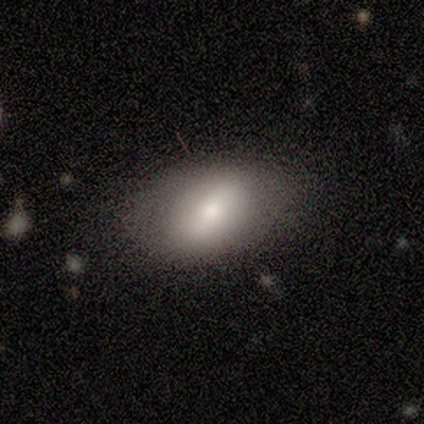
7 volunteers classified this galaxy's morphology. smooth_or_featured: featured or disk (p=0.57) [alt: smooth p=0.43]
disk_edge_on: no (p=0.75) [alt: yes p=0.25]
bar: weak (p=0.67) [alt: strong p=0.33]
has_spiral_arms: no (p=0.67) [alt: yes p=0.33]
bulge_size: moderate (p=0.67) [alt: small p=0.33]
merging: none (p=0.86) [alt: minor disturbance p=0.14]